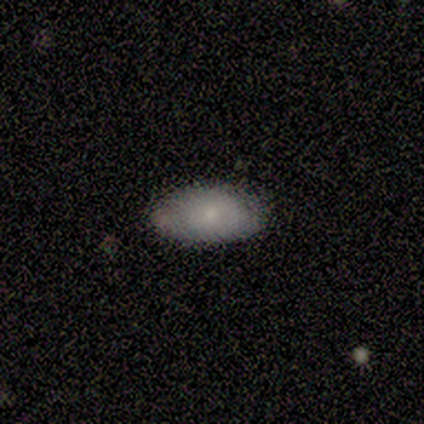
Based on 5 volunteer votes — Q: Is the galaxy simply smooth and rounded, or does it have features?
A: smooth — 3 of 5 (60%).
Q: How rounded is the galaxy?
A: in between — 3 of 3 (100%).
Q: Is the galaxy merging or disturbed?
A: none — 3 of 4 (75%).